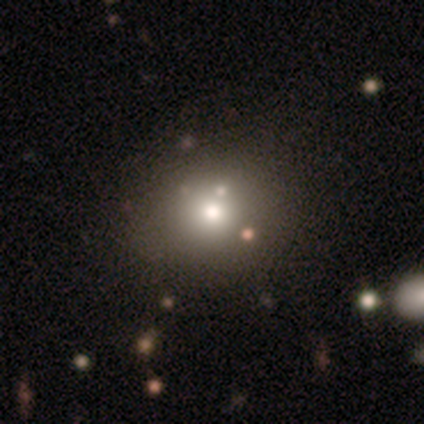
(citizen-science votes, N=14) Smooth or featured? smooth (86%)
How rounded? round (83%)
Merging? none (77%)